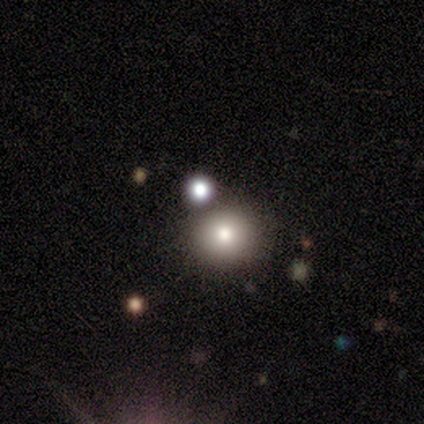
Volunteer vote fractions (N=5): smooth_or_featured: smooth (p=0.80) [alt: star or artifact p=0.20]
how_rounded: round (p=1.00)
merging: none (p=0.50) [alt: major disturbance p=0.25]